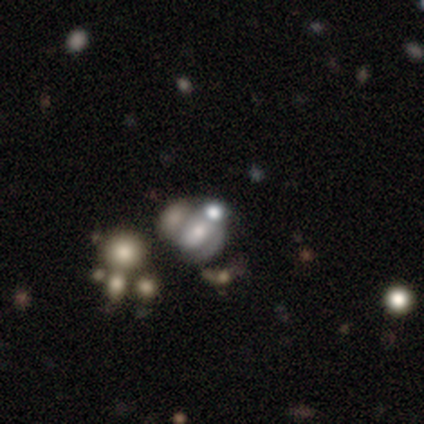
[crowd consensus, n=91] featured or disk 43%, star or artifact 30%, smooth 27%. Down the decision tree: edge-on disk — no (100%); bar — no (79%); spiral arms — no (64%); bulge size — moderate (31%, tied with small); merging — merger (48%).